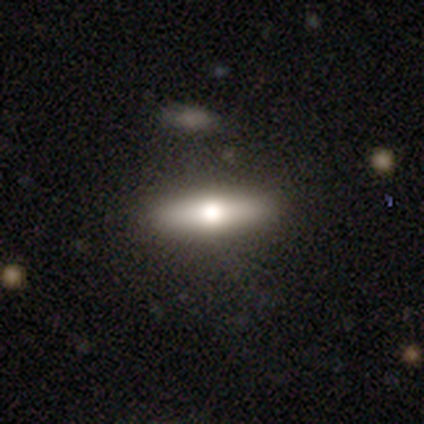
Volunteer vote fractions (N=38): This appears to be a smooth galaxy with no disk features (47%) that is cigar-shaped (61%). Merging: none (91%).